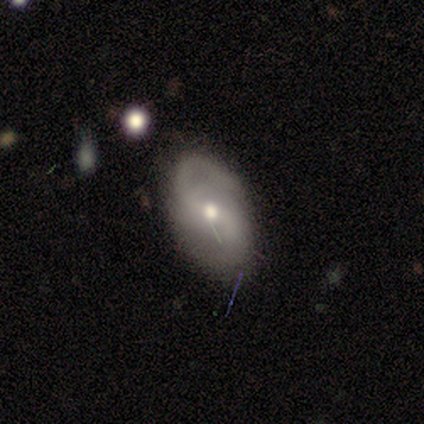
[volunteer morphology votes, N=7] smooth-or-featured: featured or disk: 57% | smooth: 43% | star or artifact: 0%
  disk-edge-on: no: 100% | yes: 0%
    bar: weak: 75% | no: 25% | strong: 0%
    has-spiral-arms: yes: 100% | no: 0%
      spiral-winding: medium: 75% | loose: 25% | tight: 0%
      spiral-arm-count: 2: 75% | can't tell: 25% | 1: 0% | 3: 0% | 4: 0% | more than 4: 0%
    bulge-size: small: 75% | moderate: 25% | dominant: 0% | large: 0% | none: 0%
  merging: none: 100% | minor disturbance: 0% | major disturbance: 0% | merger: 0%